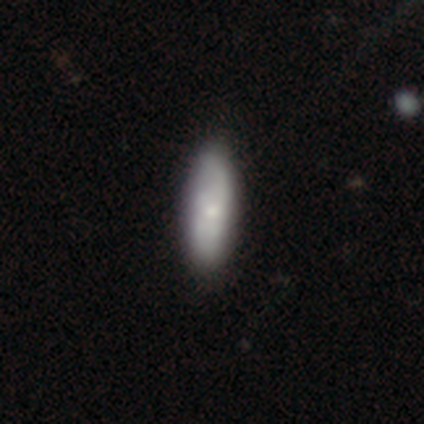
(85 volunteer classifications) This is likely a smooth galaxy (69%). How rounded: possibly cigar-shaped (58%). Merging: clearly none (81%).